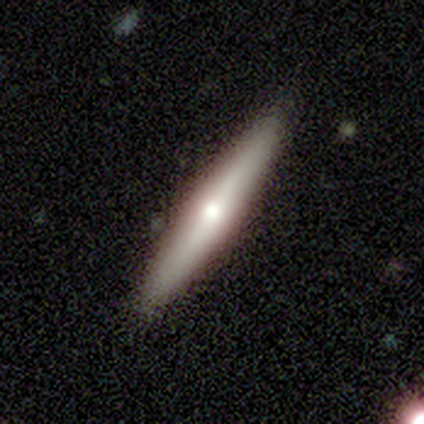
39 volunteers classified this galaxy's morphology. This appears to be a smooth galaxy with no disk features (51%) that is cigar-shaped (95%). Merging: none (92%).